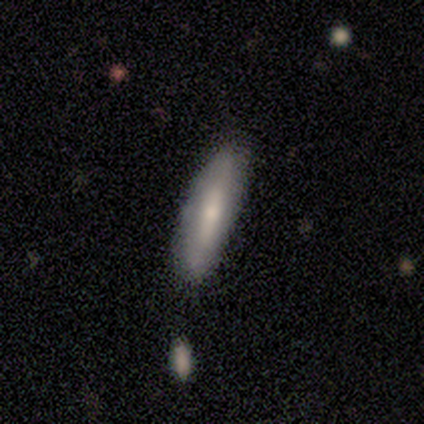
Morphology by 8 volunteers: smooth 75%, featured or disk 25%, star or artifact 0%. Down the decision tree: how rounded — cigar-shaped (67%); merging — none (62%).